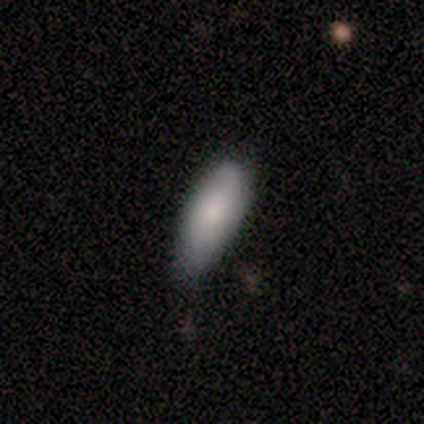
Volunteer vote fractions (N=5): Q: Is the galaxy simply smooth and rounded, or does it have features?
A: smooth — 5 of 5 (100%).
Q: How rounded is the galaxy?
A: in between — 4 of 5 (80%).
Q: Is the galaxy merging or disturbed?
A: none — 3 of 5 (60%).